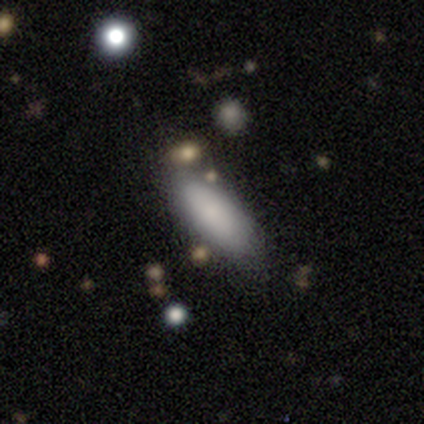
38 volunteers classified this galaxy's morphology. type=smooth (79%); roundness=in between (70%); merging=none (85%).